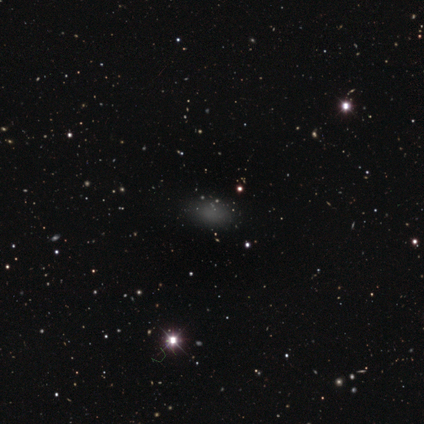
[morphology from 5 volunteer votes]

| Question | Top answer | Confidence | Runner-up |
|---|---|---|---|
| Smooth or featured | smooth | 80% | star or artifact (20%) |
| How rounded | in between | 100% | — |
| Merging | none | 100% | — |